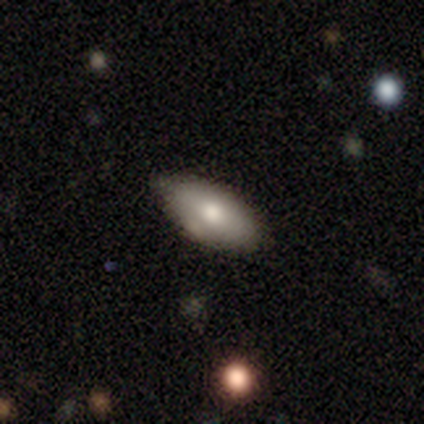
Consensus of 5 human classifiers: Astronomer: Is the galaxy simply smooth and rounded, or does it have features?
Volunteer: smooth — 60% (runner-up: featured or disk, 40%).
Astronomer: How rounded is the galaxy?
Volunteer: in between — 100%.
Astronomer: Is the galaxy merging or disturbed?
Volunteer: none — 60% (runner-up: minor disturbance, 40%).